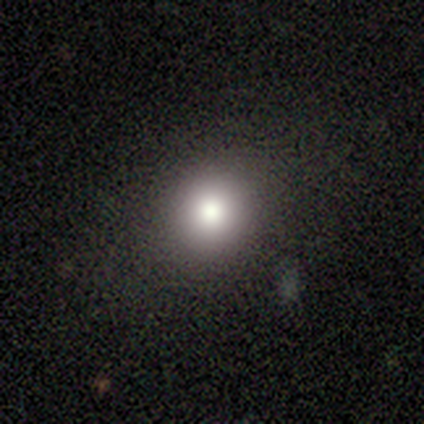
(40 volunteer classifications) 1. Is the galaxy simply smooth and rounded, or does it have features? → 75% smooth, 15% featured or disk, 10% star or artifact.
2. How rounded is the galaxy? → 90% round, 10% in between, 0% cigar-shaped.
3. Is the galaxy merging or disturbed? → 83% none, 8% minor disturbance, 8% major disturbance, 0% merger.